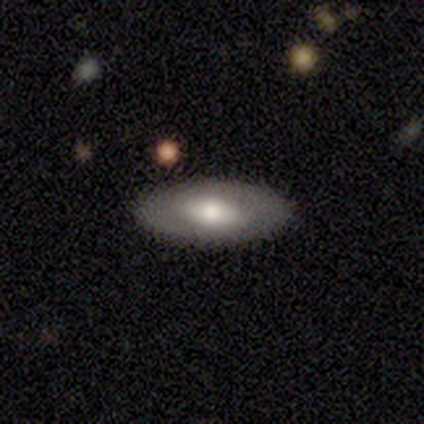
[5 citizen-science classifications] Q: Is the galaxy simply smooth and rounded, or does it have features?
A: smooth — 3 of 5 (60%).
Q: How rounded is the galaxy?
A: in between — 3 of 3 (100%).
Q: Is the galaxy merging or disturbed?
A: none — 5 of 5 (100%).